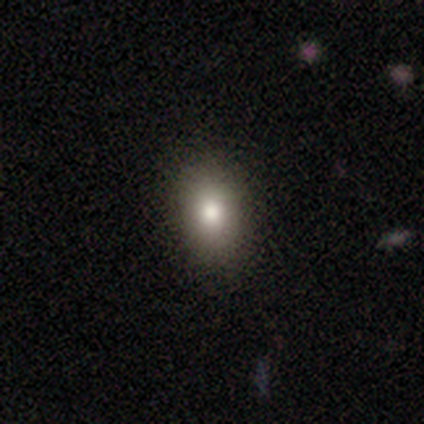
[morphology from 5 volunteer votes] type=smooth (80%); roundness=round (50%, tied with in between); merging=none (100%).